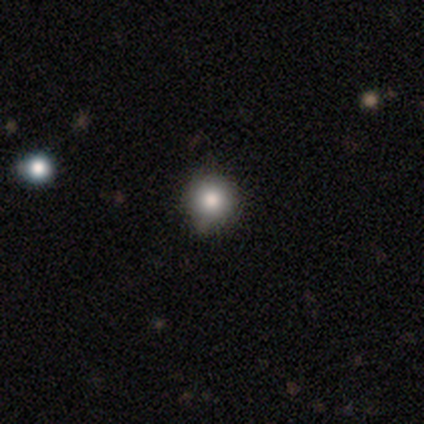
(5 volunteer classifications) Smooth or featured? smooth (80%)
How rounded? round (100%)
Merging? none (80%)